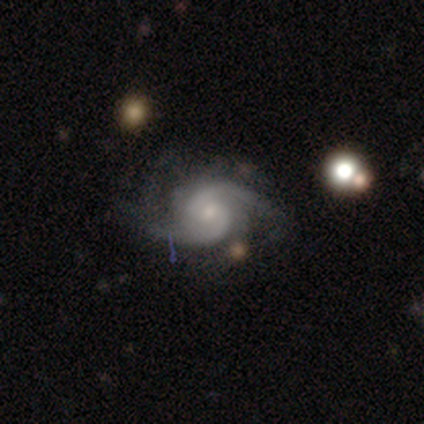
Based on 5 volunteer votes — A featured or disk galaxy (100%) with no bar (75%), 2 (100%) medium (100%) spiral arms (100%) and a small central bulge (50%, tied with none). Merging: none (80%).